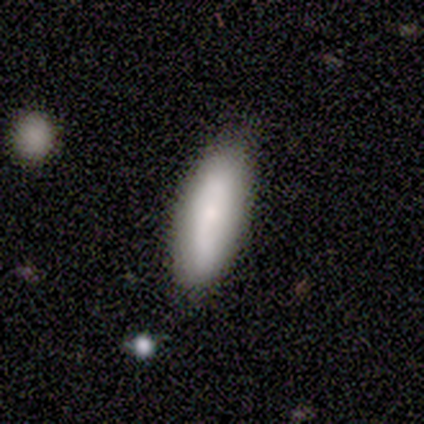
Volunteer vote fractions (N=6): This is likely a smooth galaxy (67%). How rounded: clearly cigar-shaped (100%). Merging: clearly none (100%).